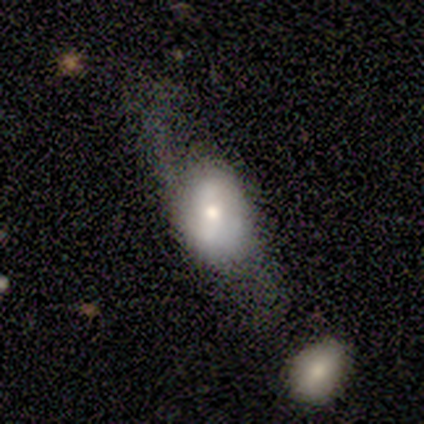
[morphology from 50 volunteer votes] type=featured or disk (56%); edge-on=no (89%); bar=no (48%); spiral arms=no (52%); bulge=moderate (68%); merging=none (40%).